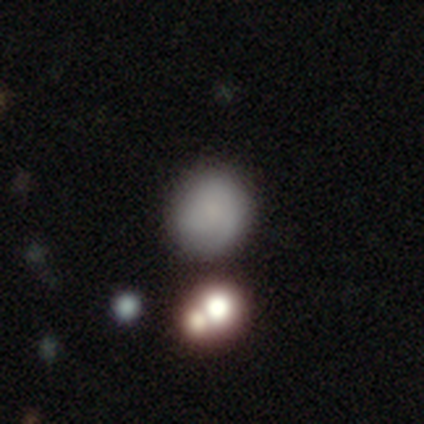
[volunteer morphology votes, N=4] Smooth or featured? 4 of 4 (100%) said smooth. How rounded? 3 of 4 (75%) said round. Merging? 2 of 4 (50%) said none.